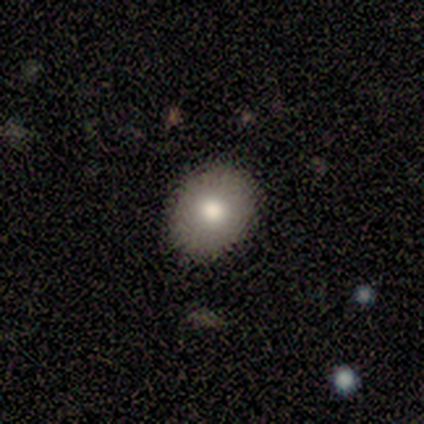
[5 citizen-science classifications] A smooth galaxy with no disk features (100%) that is in between round and cigar-shaped (60%). Merging: none (60%).